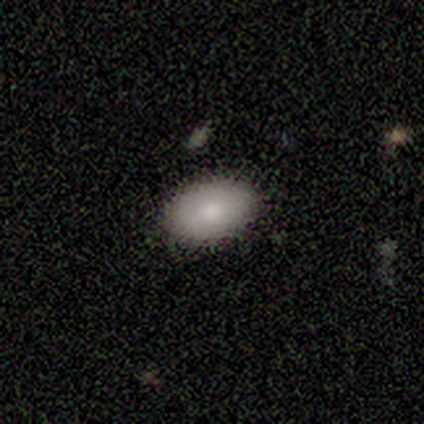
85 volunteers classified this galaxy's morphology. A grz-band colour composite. It shows a smooth galaxy with no disk features (87%) that is in between round and cigar-shaped (95%). Merging: none (92%).